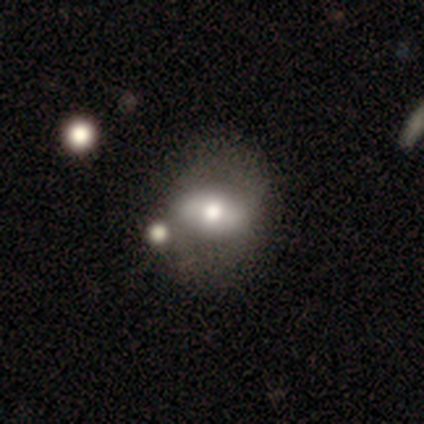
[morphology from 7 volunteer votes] A featured or disk galaxy (57%) with no bar (50%), no spiral arms (100%) and a moderate central bulge (50%).

Vote fractions:
- Smooth or featured? featured or disk: 57% / smooth: 43% / star or artifact: 0%
- Edge-on disk? no: 100% / yes: 0%
- Bar? no: 50% / strong: 25% / weak: 25%
- Spiral arms? no: 100% / yes: 0%
- Bulge size? moderate: 50% / large: 25% / small: 25% / dominant: 0% / none: 0%
- Merging? none: 71% / major disturbance: 14% / merger: 14% / minor disturbance: 0%